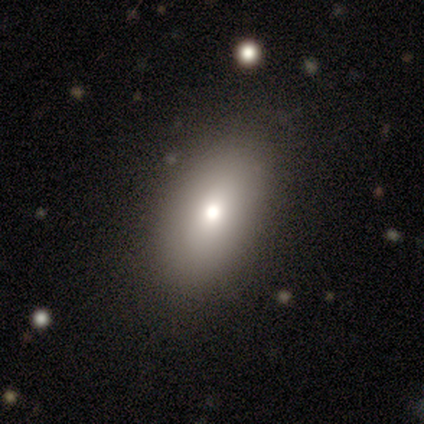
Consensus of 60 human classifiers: smooth-or-featured: smooth: 82% | featured or disk: 15% | star or artifact: 3%
  how-rounded: in between: 92% | round: 6% | cigar-shaped: 2%
  merging: none: 66% | minor disturbance: 2% | major disturbance: 2% | merger: 0%